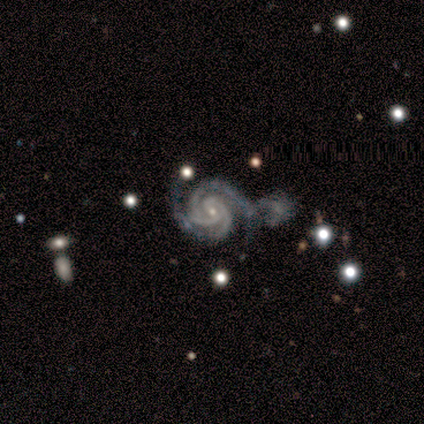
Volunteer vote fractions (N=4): This appears to be a featured or disk galaxy (100%) with no bar (75%), 3 (50%) tight (100%) spiral arms (100%) and a small central bulge (100%). Merging: none (50%).